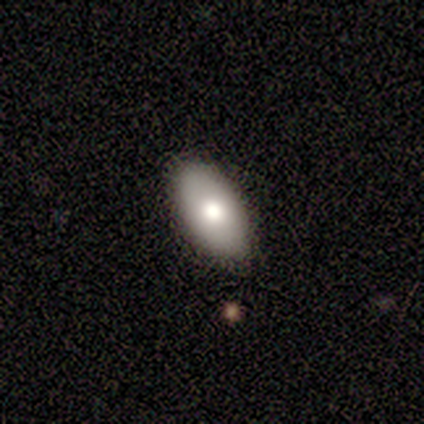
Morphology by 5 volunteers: Smooth or featured?
  - smooth: 100% *
  - featured or disk: 0%
  - star or artifact: 0%
How rounded?
  - in between: 100% *
  - round: 0%
  - cigar-shaped: 0%
Merging?
  - none: 100% *
  - minor disturbance: 0%
  - major disturbance: 0%
  - merger: 0%